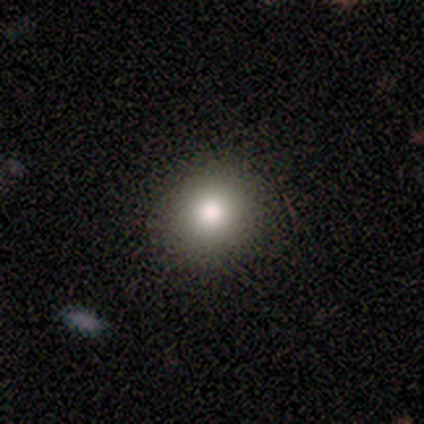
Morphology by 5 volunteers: type=smooth (80%); roundness=round (75%); merging=none (100%).